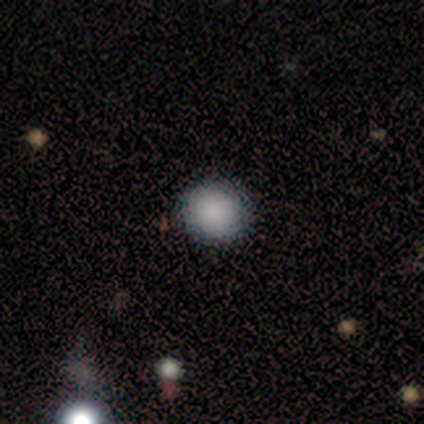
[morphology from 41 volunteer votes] This is clearly a smooth galaxy (93%). How rounded: clearly round (95%). Merging: clearly none (95%).